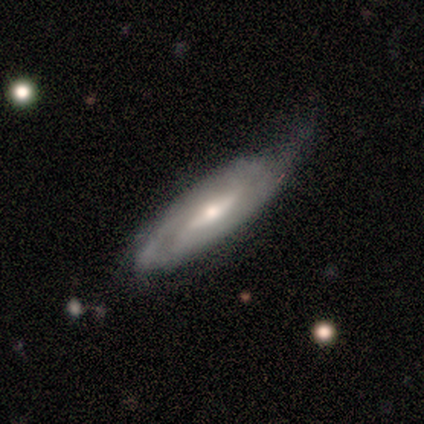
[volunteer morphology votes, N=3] Smooth or featured?
  - featured or disk: 100% *
  - smooth: 0%
  - star or artifact: 0%
Edge-on disk?
  - no: 100% *
  - yes: 0%
Bar?
  - weak: 67% *
  - strong: 33%
  - no: 0%
Spiral arms?
  - yes: 100% *
  - no: 0%
Spiral winding?
  - tight: 67% *
  - medium: 33%
  - loose: 0%
Spiral arm count?
  - can't tell: 67% *
  - 2: 33%
  - 1: 0%
  - 3: 0%
  - 4: 0%
  - more than 4: 0%
Bulge size?
  - large: 33% * (tied)
  - moderate: 33% * (tied)
  - small: 33% * (tied)
  - dominant: 0%
  - none: 0%
Merging?
  - minor disturbance: 67% *
  - none: 33%
  - major disturbance: 0%
  - merger: 0%